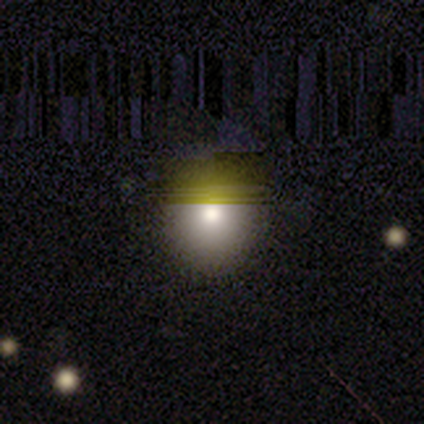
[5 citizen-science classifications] smooth 60%, star or artifact 40%, featured or disk 0%. Down the decision tree: how rounded — round (67%); merging — none (100%).